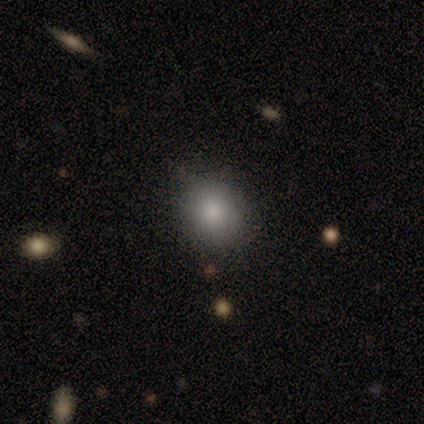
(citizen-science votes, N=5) Volunteers were most divided on "how rounded": round: 80%, in between: 20%, cigar-shaped: 0%. More confident: smooth or featured — smooth (100%); merging — none (100%).